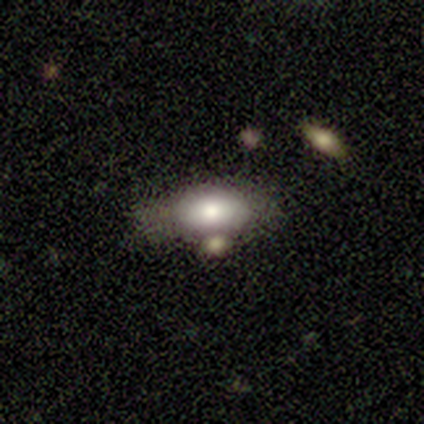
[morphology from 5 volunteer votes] Smooth or featured? 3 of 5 (60%) said featured or disk. Edge-on disk? 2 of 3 (67%) said yes. Edge-on bulge? 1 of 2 (50%, tied with rounded) said none. Merging? 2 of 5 (40%, tied with merger) said minor disturbance.